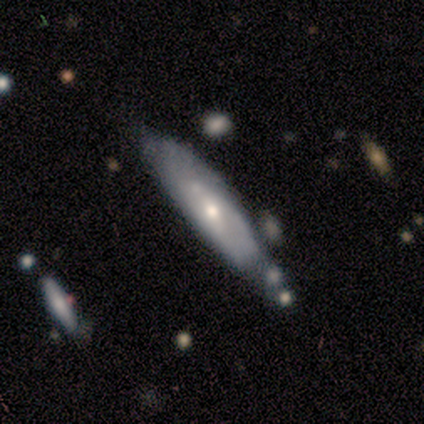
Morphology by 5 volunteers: Smooth or featured? featured or disk (60%)
Edge-on disk? no (67%)
Bar? weak (50%, tied with no)
Spiral arms? yes (50%, tied with no)
Spiral winding? tight (100%)
Spiral arm count? 2 (100%)
Bulge size? small (100%)
Merging? none (60%)